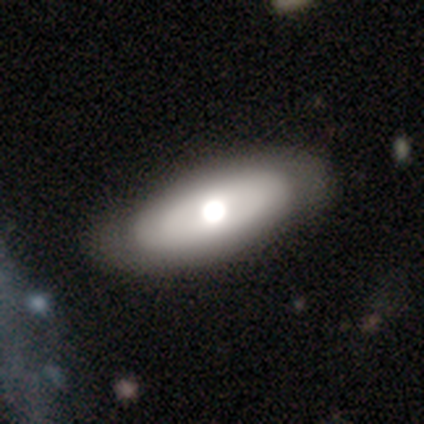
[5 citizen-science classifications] Smooth or featured? 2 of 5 (40%, tied with star or artifact) said featured or disk. Edge-on disk? 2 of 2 (100%) said no. Bar? 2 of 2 (100%) said no. Spiral arms? 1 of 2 (50%, tied with no) said yes. Spiral winding? 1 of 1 (100%) said tight. Spiral arm count? 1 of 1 (100%) said can't tell. Bulge size? 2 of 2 (100%) said moderate. Merging? 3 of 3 (100%) said none.